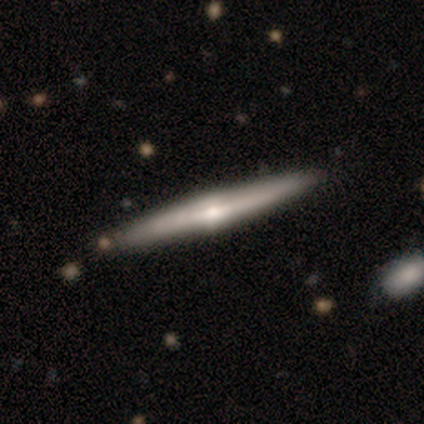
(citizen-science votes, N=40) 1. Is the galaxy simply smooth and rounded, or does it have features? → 70% featured or disk, 28% smooth, 2% star or artifact.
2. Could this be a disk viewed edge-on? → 100% yes, 0% no.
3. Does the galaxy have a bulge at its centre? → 75% rounded, 18% none, 7% boxy.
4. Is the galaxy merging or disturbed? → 77% none, 10% minor disturbance, 8% merger, 5% major disturbance.